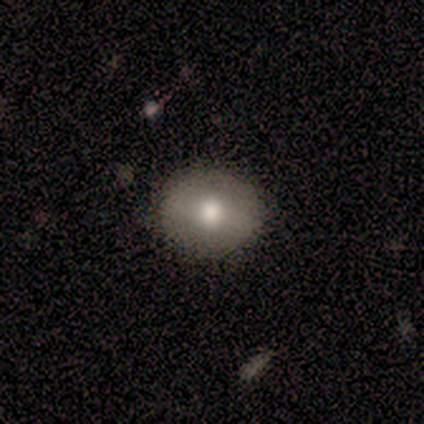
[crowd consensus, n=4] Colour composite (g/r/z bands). It shows a smooth galaxy with no disk features (100%) that is round (50%). Merging: none (75%).